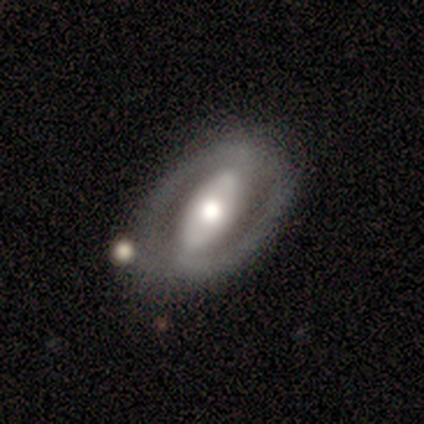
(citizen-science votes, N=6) Smooth or featured? 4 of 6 (67%) said featured or disk. Edge-on disk? 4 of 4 (100%) said no. Bar? 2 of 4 (50%, tied with no) said strong. Spiral arms? 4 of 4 (100%) said yes. Spiral winding? 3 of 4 (75%) said loose. Spiral arm count? 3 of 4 (75%) said 2. Bulge size? 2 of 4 (50%) said moderate. Merging? 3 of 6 (50%) said none.